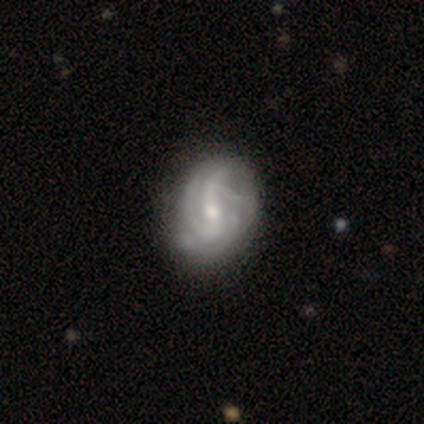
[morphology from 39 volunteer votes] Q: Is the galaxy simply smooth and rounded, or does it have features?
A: featured or disk — 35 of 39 (90%).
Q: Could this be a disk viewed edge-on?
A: no — 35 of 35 (100%).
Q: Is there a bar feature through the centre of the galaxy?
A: weak — 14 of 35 (40%).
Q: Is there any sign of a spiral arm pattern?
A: yes — 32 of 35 (91%).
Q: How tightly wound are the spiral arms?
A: medium — 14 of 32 (44%).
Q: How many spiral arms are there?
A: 2 — 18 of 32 (56%).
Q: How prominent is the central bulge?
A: moderate — 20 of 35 (57%).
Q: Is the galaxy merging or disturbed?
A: minor disturbance — 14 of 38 (37%).